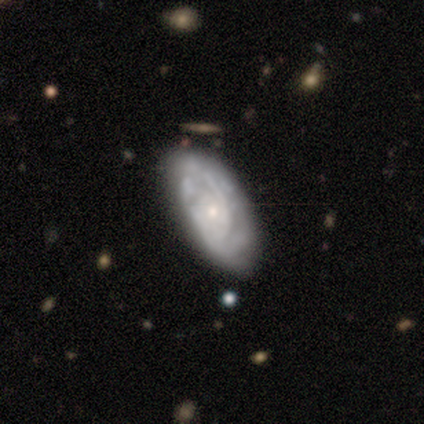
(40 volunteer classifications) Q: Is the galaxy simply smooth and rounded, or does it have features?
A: featured or disk — 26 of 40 (65%).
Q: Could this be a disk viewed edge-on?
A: no — 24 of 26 (92%).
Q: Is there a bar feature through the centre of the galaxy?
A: no — 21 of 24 (88%).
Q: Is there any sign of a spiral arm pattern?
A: yes — 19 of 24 (79%).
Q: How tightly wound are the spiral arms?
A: tight — 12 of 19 (63%).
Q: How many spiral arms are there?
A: can't tell — 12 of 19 (63%).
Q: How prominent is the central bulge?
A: small — 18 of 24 (75%).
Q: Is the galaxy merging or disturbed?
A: none — 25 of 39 (64%).